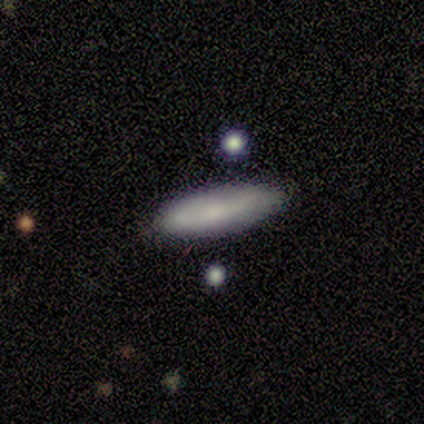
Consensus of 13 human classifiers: Smooth or featured? smooth (77%)
How rounded? in between (60%)
Merging? none (62%)